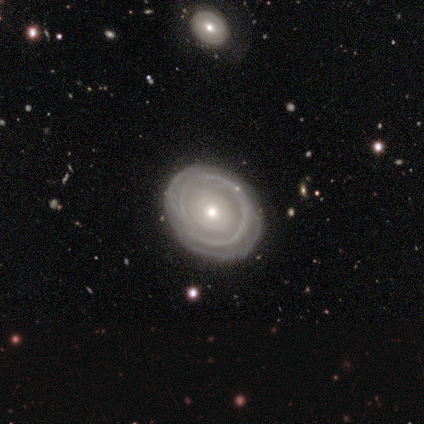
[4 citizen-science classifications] Smooth or featured: featured or disk — 100%
Edge-on disk: no — 100%
Bar: no — 100%
Spiral arms: yes — 50% (tied with no — 50%)
Spiral winding: tight — 100%
Spiral arm count: can't tell — 100%
Bulge size: moderate — 50% (tied with small — 50%)
Merging: none — 75% (minor disturbance — 25%)